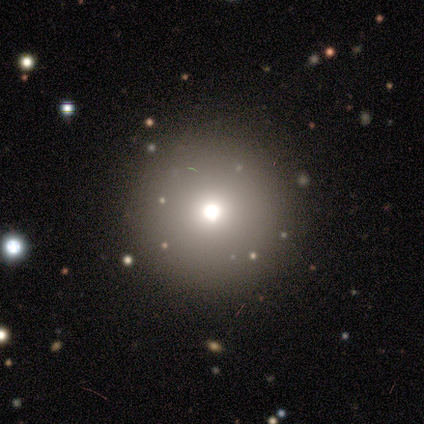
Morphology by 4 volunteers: Smooth or featured? 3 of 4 (75%) said smooth. How rounded? 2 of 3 (67%) said round. Merging? 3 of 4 (75%) said none.